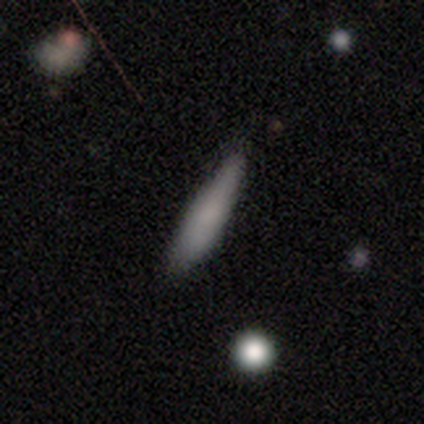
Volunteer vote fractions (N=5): Overall: smooth (100%). How rounded: cigar-shaped (80%). Merging: none (100%).